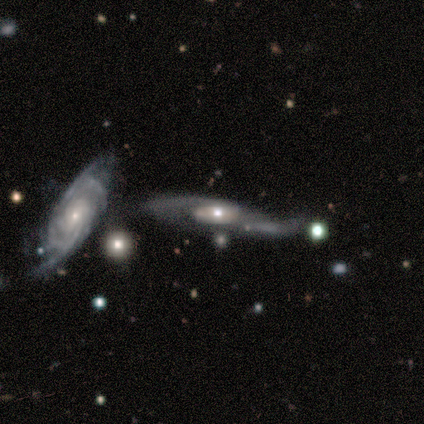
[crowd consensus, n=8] Smooth or featured?
  - featured or disk: 100% *
  - smooth: 0%
  - star or artifact: 0%
Edge-on disk?
  - no: 75% *
  - yes: 25%
Bar?
  - no: 67% *
  - strong: 33%
  - weak: 0%
Spiral arms?
  - yes: 100% *
  - no: 0%
Spiral winding?
  - loose: 50% *
  - tight: 33%
  - medium: 17%
Spiral arm count?
  - 2: 67% *
  - 1: 17%
  - can't tell: 17%
  - 3: 0%
  - 4: 0%
  - more than 4: 0%
Bulge size?
  - moderate: 50% * (tied)
  - small: 50% * (tied)
  - dominant: 0%
  - large: 0%
  - none: 0%
Merging?
  - none: 38% * (tied)
  - merger: 38% * (tied)
  - major disturbance: 25%
  - minor disturbance: 0%